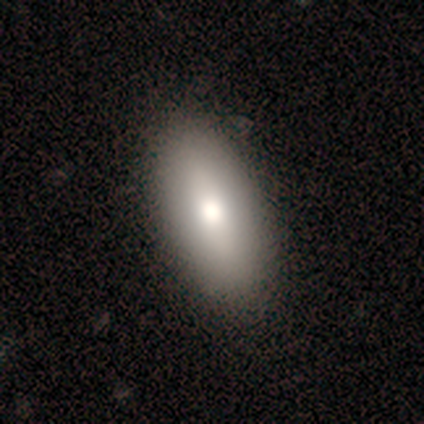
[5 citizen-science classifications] Q: Smooth or featured?
A: featured or disk (40%); tied with: star or artifact (40%)
Q: Edge-on disk?
A: yes (100%)
Q: Edge-on bulge?
A: rounded (100%)
Q: Merging?
A: none (100%)